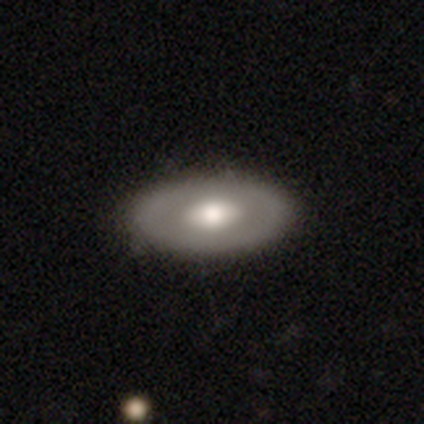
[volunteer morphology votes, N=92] smooth_or_featured: smooth (p=0.58) [alt: featured or disk p=0.39]
how_rounded: in between (p=0.89) [alt: round p=0.09]
merging: none (p=0.87) [alt: minor disturbance p=0.11]